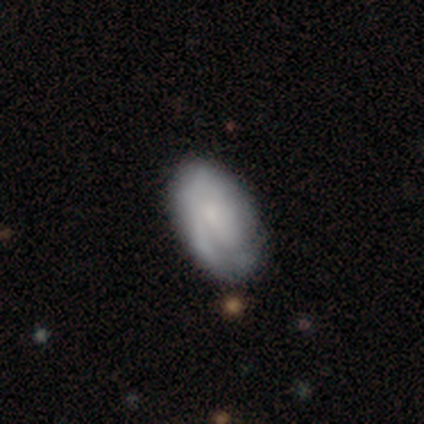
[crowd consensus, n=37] Smooth or featured? smooth (46%)
How rounded? in between (88%)
Merging? none (69%)